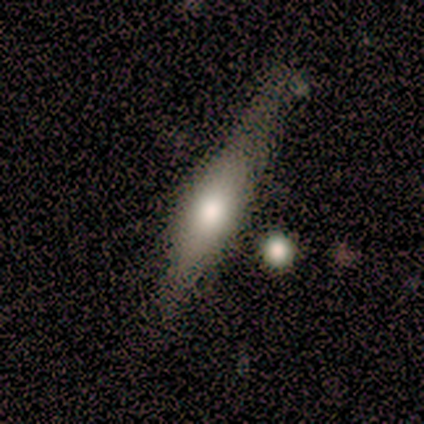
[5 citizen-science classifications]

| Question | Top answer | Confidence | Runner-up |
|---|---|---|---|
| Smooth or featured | featured or disk | 80% | smooth (20%) |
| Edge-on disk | yes | 75% | no (25%) |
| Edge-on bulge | rounded | 67% | boxy (33%) |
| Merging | none | 40% | tied: minor disturbance (40%) |